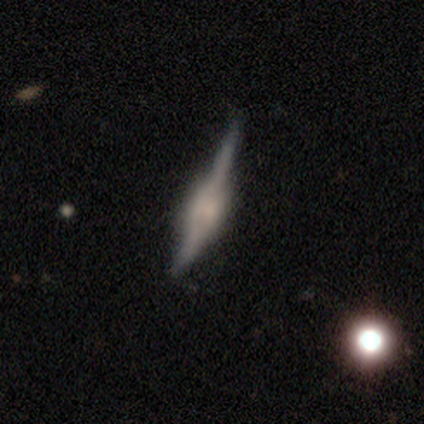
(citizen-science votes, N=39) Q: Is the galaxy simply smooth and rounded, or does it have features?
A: featured or disk — 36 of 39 (92%).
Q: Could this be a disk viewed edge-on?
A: yes — 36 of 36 (100%).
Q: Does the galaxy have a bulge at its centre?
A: boxy — 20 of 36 (56%).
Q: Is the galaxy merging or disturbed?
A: none — 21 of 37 (57%).